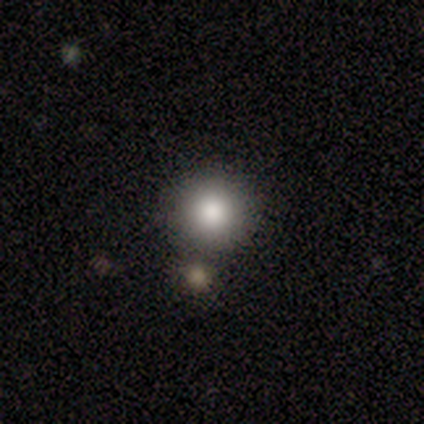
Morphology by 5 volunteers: This is clearly a smooth galaxy (100%). How rounded: clearly round (100%). Merging: likely none (60%).